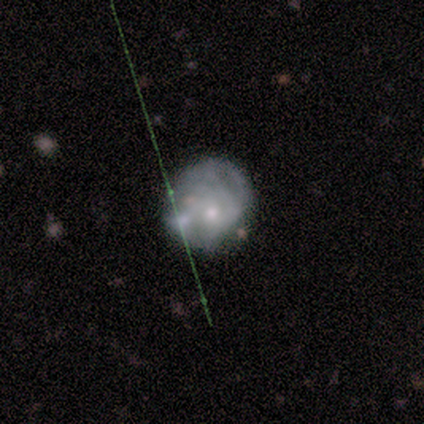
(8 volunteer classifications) Smooth or featured? 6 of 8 (75%) said smooth. How rounded? 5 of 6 (83%) said round. Merging? 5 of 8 (62%) said minor disturbance.